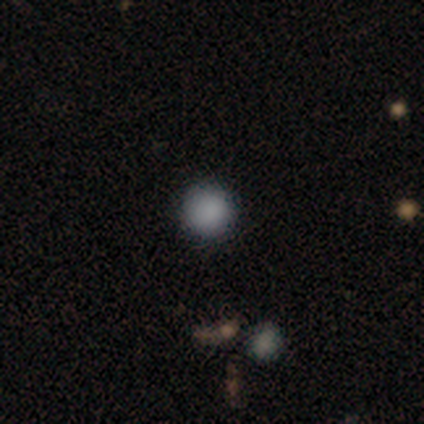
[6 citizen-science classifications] A smooth galaxy with no disk features (83%) that is round (100%).

Vote fractions:
- Smooth or featured? smooth: 83% / featured or disk: 17% / star or artifact: 0%
- How rounded? round: 100% / in between: 0% / cigar-shaped: 0%
- Merging? none: 83% / minor disturbance: 17% / major disturbance: 0% / merger: 0%